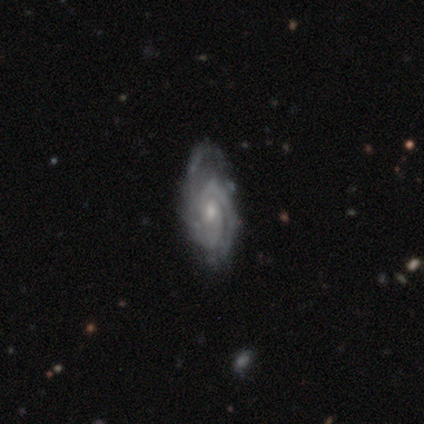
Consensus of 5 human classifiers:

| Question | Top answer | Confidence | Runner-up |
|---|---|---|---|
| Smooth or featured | featured or disk | 80% | star or artifact (20%) |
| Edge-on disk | no | 100% | — |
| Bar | weak | 50% | strong (25%) |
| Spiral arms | yes | 100% | — |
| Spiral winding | tight | 50% | tied: medium (50%) |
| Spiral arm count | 2 | 50% | 1 (25%) |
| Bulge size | moderate | 50% | tied: small (50%) |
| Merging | none | 50% | tied: minor disturbance (50%) |